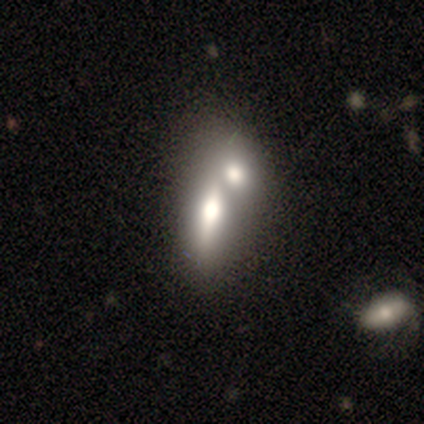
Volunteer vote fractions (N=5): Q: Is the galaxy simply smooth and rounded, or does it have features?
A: smooth — 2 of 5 (40%, tied with featured or disk).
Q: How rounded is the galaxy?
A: in between — 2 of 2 (100%).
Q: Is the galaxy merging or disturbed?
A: merger — 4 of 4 (100%).